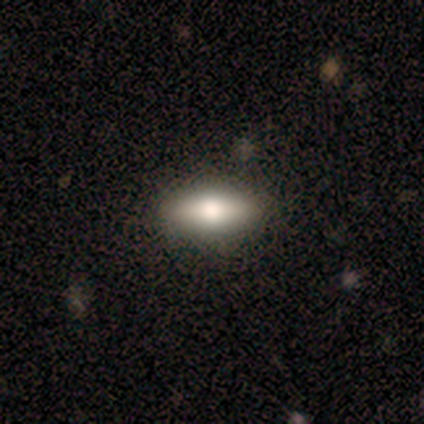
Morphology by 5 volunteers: A featured or disk galaxy (60%) viewed edge-on (67%) with a rounded central bulge (100%).

Vote fractions:
- Smooth or featured? featured or disk: 60% / smooth: 40% / star or artifact: 0%
- Edge-on disk? yes: 67% / no: 33%
- Edge-on bulge? rounded: 100% / boxy: 0% / none: 0%
- Merging? none: 100% / minor disturbance: 0% / major disturbance: 0% / merger: 0%